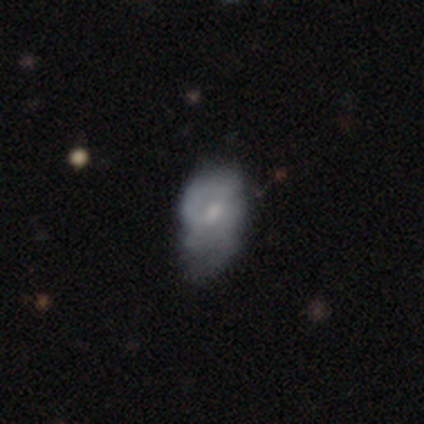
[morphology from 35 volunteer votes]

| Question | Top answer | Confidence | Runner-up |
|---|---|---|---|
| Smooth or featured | featured or disk | 46% | smooth (43%) |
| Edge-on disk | no | 94% | yes (6%) |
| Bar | no | 67% | weak (33%) |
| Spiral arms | no | 60% | yes (40%) |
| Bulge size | small | 40% | none (33%) |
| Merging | none | 39% | tied: minor disturbance (39%) |